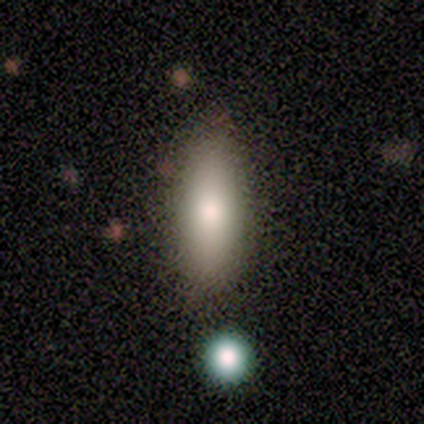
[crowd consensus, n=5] smooth_or_featured: smooth (p=0.40) [tied with: star or artifact p=0.40]
how_rounded: in between (p=1.00)
merging: minor disturbance (p=0.67) [alt: none p=0.33]